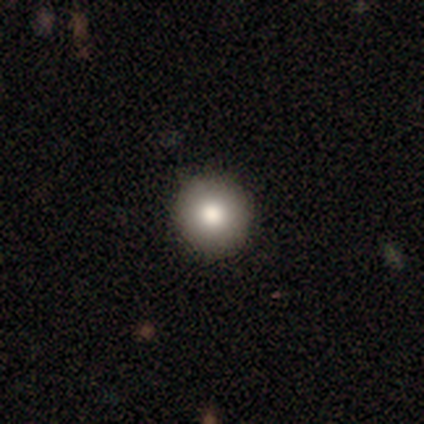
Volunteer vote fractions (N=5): Smooth or featured?
  - smooth: 100% *
  - featured or disk: 0%
  - star or artifact: 0%
How rounded?
  - round: 80% *
  - in between: 20%
  - cigar-shaped: 0%
Merging?
  - none: 100% *
  - minor disturbance: 0%
  - major disturbance: 0%
  - merger: 0%